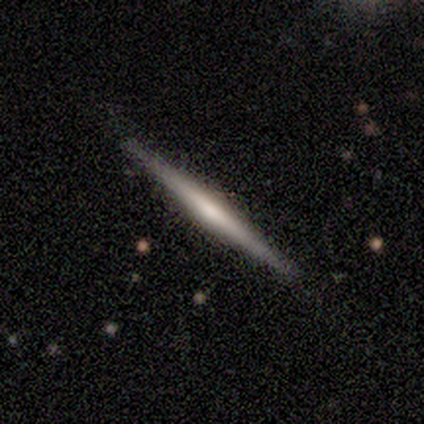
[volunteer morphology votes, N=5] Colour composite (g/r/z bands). It shows a featured or disk galaxy (100%) viewed edge-on (100%) with no central bulge (60%). Merging: none (100%).